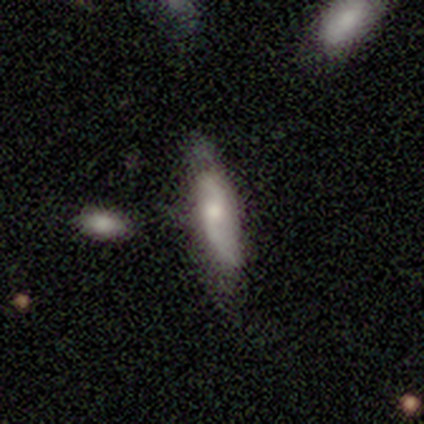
Smooth or featured? 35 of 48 (73%) said featured or disk. Edge-on disk? 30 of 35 (86%) said no. Bar? 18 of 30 (60%) said no. Spiral arms? 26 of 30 (87%) said yes. Spiral winding? 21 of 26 (81%) said loose. Spiral arm count? 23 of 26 (88%) said 2. Bulge size? 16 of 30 (53%) said small. Merging? 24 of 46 (52%) said none.